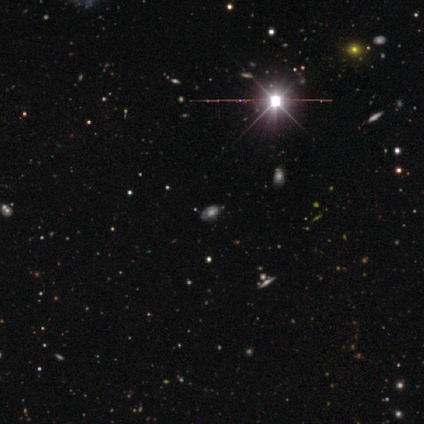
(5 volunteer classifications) This is clearly a smooth galaxy (80%). How rounded: clearly in between (100%). Merging: clearly none (100%).